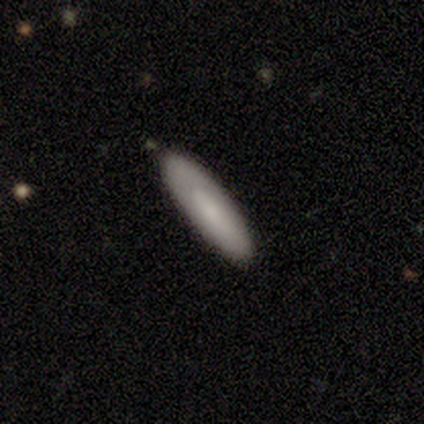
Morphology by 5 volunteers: A smooth galaxy with no disk features (100%) that is in between round and cigar-shaped (60%).

Vote fractions:
- Smooth or featured? smooth: 100% / featured or disk: 0% / star or artifact: 0%
- How rounded? in between: 60% / cigar-shaped: 40% / round: 0%
- Merging? none: 60% / minor disturbance: 20% / major disturbance: 20% / merger: 0%